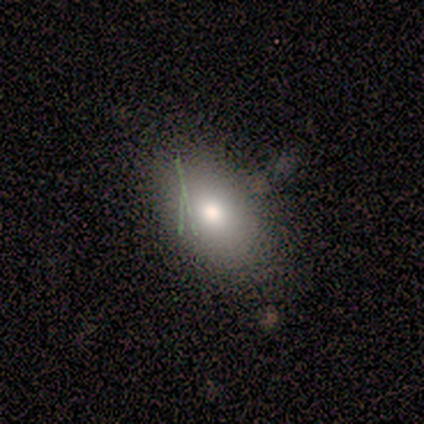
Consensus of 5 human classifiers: Volunteers were most divided on "smooth or featured": smooth: 60%, featured or disk: 40%, star or artifact: 0%. More confident: merging — none (80%); how rounded — in between (67%).